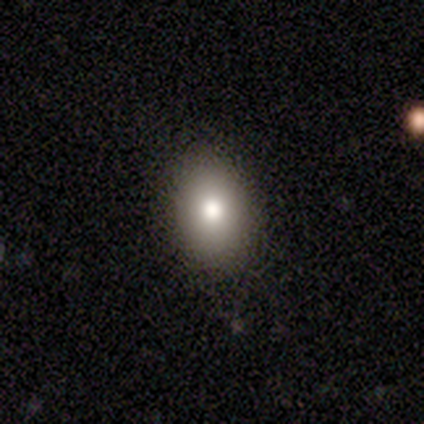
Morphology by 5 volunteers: smooth_or_featured: smooth (p=0.60) [alt: featured or disk p=0.40]
how_rounded: in between (p=0.67) [alt: round p=0.33]
merging: none (p=0.80) [alt: minor disturbance p=0.20]